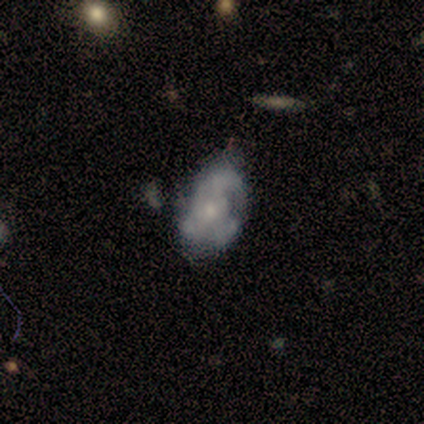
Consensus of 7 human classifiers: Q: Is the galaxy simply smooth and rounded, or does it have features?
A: featured or disk — 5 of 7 (71%).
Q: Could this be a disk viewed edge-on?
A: no — 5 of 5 (100%).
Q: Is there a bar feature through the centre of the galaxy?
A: no — 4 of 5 (80%).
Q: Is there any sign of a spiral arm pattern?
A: yes — 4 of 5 (80%).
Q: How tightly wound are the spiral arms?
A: medium — 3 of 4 (75%).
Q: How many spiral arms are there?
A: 3 — 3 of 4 (75%).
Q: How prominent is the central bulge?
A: small — 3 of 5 (60%).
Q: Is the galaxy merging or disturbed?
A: none — 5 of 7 (71%).